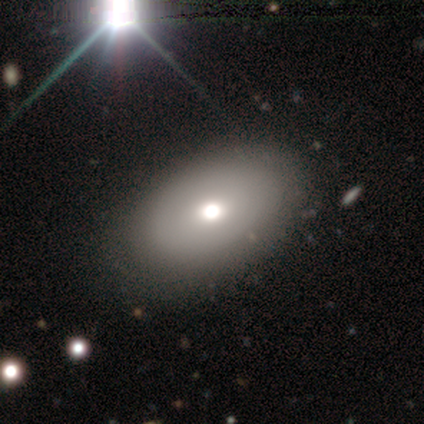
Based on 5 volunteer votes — Smooth or featured?
  - smooth: 100% *
  - featured or disk: 0%
  - star or artifact: 0%
How rounded?
  - in between: 100% *
  - round: 0%
  - cigar-shaped: 0%
Merging?
  - none: 100% *
  - minor disturbance: 0%
  - major disturbance: 0%
  - merger: 0%